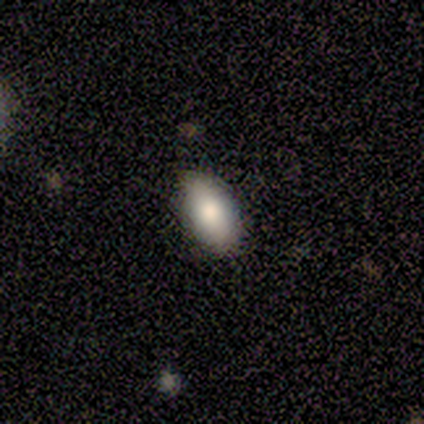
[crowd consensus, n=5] Q: Smooth or featured?
A: smooth (100%)
Q: How rounded?
A: in between (100%)
Q: Merging?
A: none (100%)